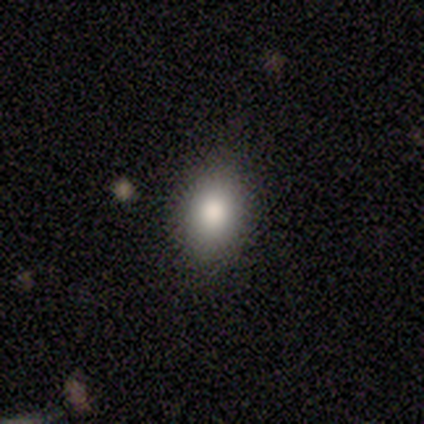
smooth 100%, featured or disk 0%, star or artifact 0%. Down the decision tree: how rounded — in between (80%); merging — none (60%).